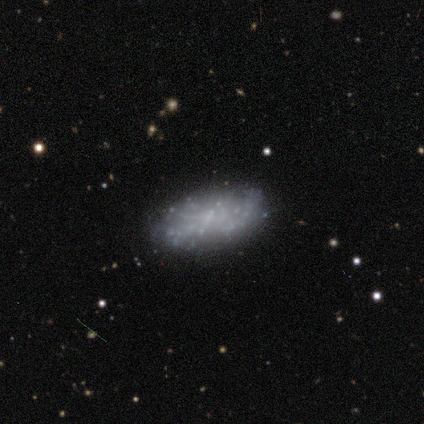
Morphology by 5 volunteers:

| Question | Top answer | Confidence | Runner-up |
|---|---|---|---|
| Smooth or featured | featured or disk | 60% | smooth (40%) |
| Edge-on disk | no | 100% | — |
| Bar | no | 100% | — |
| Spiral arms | no | 100% | — |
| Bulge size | none | 67% | small (33%) |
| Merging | none | 80% | major disturbance (20%) |